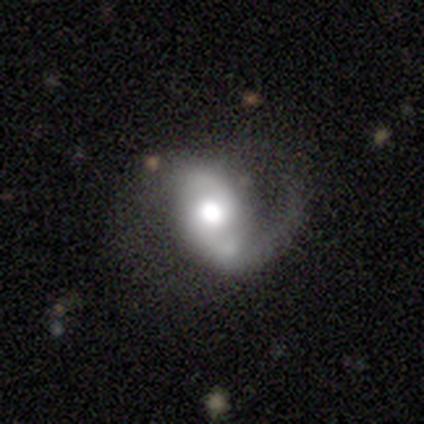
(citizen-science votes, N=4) smooth_or_featured: featured or disk (p=0.75) [alt: smooth p=0.25]
disk_edge_on: no (p=1.00)
bar: no (p=1.00)
has_spiral_arms: yes (p=1.00)
spiral_winding: medium (p=0.67) [alt: loose p=0.33]
spiral_arm_count: 2 (p=0.67) [alt: 1 p=0.33]
bulge_size: moderate (p=0.67) [alt: large p=0.33]
merging: major disturbance (p=0.50) [alt: none p=0.25]